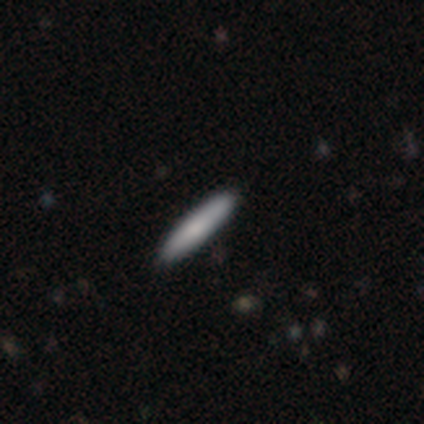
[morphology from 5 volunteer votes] This is likely a smooth galaxy (60%). How rounded: clearly cigar-shaped (100%). Merging: clearly none (100%).